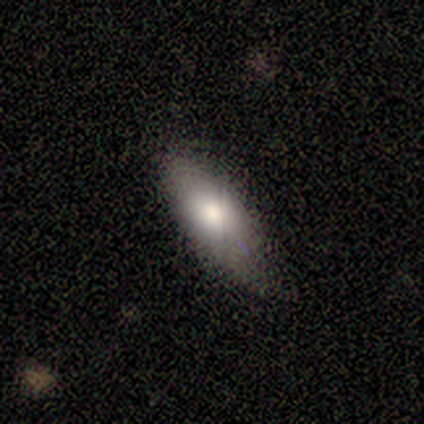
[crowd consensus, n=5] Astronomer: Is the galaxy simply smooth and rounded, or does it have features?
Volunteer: smooth — 100%.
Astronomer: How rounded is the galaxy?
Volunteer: in between — 100%.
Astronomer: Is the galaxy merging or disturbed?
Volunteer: none — 40%, tied with major disturbance at 40%.